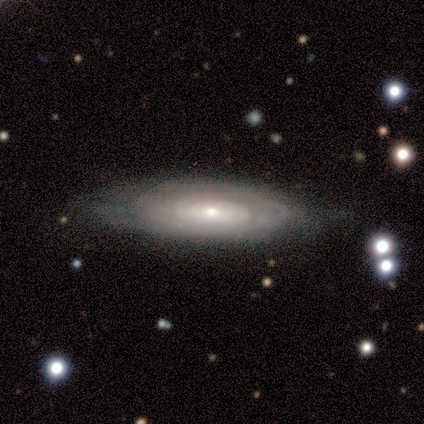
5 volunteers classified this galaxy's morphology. Smooth or featured: featured or disk — 80% (star or artifact — 20%)
Edge-on disk: no — 100%
Bar: no — 100%
Spiral arms: yes — 50% (tied with no — 50%)
Spiral winding: tight — 50% (tied with medium — 50%)
Spiral arm count: can't tell — 100%
Bulge size: small — 75% (moderate — 25%)
Merging: none — 100%